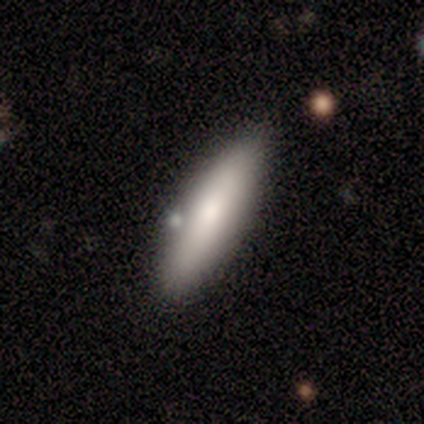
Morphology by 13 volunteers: A smooth galaxy with no disk features (62%) that is cigar-shaped (62%).

Vote fractions:
- Smooth or featured? smooth: 62% / star or artifact: 23% / featured or disk: 15%
- How rounded? cigar-shaped: 62% / in between: 38% / round: 0%
- Merging? none: 80% / minor disturbance: 20% / major disturbance: 0% / merger: 0%